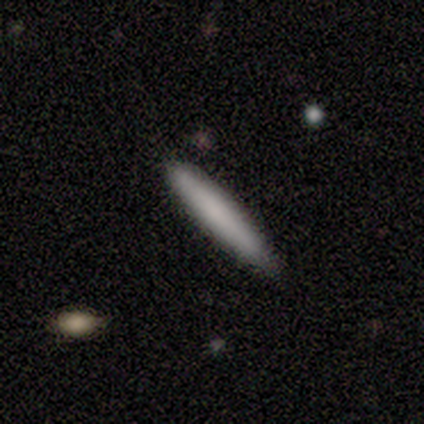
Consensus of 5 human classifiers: Smooth or featured: smooth — 60% (featured or disk — 20%)
How rounded: cigar-shaped — 100%
Merging: none — 75% (minor disturbance — 25%)